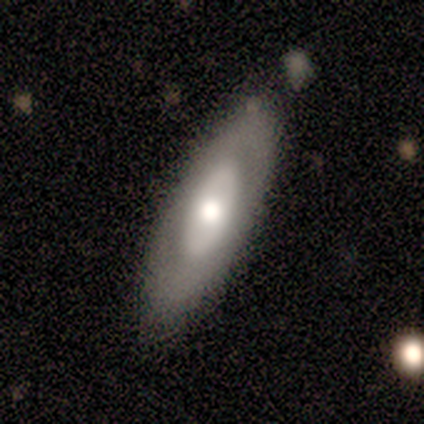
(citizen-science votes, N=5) smooth 60%, featured or disk 40%, star or artifact 0%. Down the decision tree: how rounded — in between (100%); merging — none (80%).